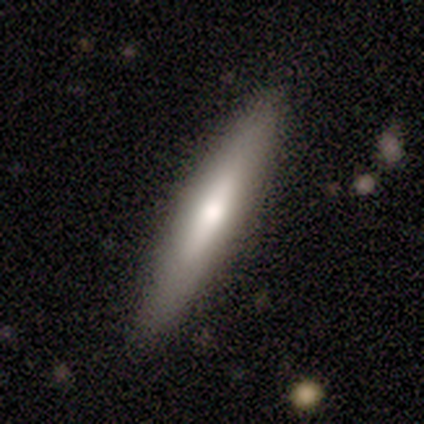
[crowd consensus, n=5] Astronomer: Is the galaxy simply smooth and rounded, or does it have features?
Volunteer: featured or disk — 60%.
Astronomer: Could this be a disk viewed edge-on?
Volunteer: yes — 100%.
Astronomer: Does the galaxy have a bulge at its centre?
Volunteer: rounded — 67%.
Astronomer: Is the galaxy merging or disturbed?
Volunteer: none — 100%.